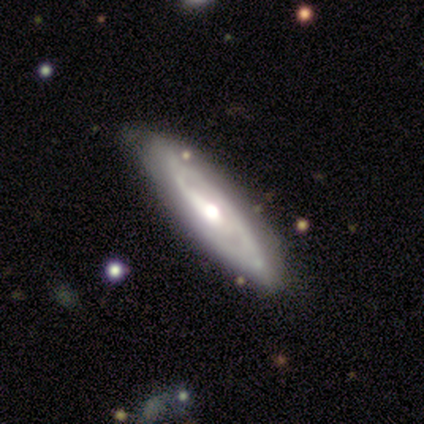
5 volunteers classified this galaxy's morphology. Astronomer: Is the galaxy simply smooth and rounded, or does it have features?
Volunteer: smooth — 60% (runner-up: featured or disk, 40%).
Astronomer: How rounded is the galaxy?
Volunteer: cigar-shaped — 100%.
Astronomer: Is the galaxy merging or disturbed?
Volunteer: none — 80%.